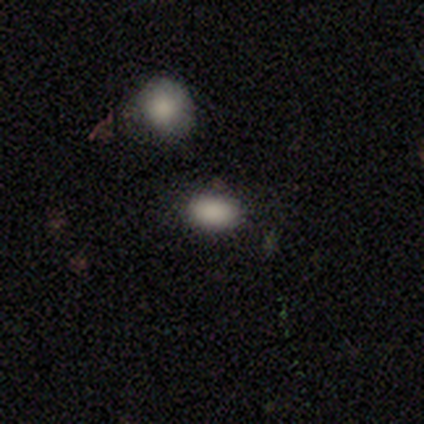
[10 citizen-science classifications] This is clearly a smooth galaxy (80%). How rounded: clearly in between (88%). Merging: clearly none (89%).